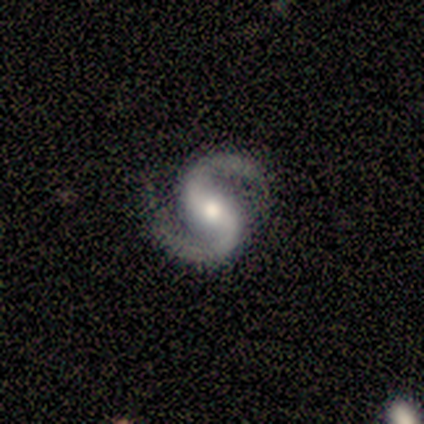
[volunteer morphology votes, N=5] Smooth or featured?
  - featured or disk: 80% *
  - smooth: 20%
  - star or artifact: 0%
Edge-on disk?
  - no: 100% *
  - yes: 0%
Bar?
  - no: 75% *
  - weak: 25%
  - strong: 0%
Spiral arms?
  - yes: 100% *
  - no: 0%
Spiral winding?
  - tight: 50% *
  - medium: 25%
  - loose: 25%
Spiral arm count?
  - 2: 100% *
  - 1: 0%
  - 3: 0%
  - 4: 0%
  - more than 4: 0%
  - can't tell: 0%
Bulge size?
  - moderate: 50% * (tied)
  - small: 50% * (tied)
  - dominant: 0%
  - large: 0%
  - none: 0%
Merging?
  - none: 80% *
  - minor disturbance: 20%
  - major disturbance: 0%
  - merger: 0%